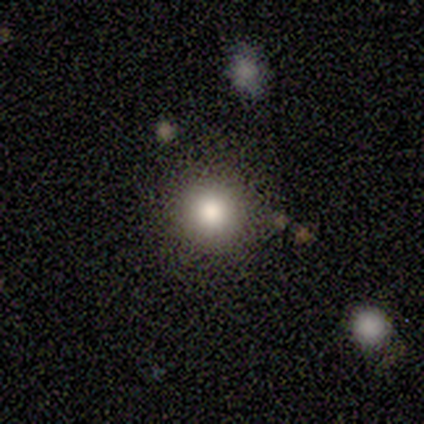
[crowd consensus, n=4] A smooth galaxy with no disk features (100%) that is round (75%).

Vote fractions:
- Smooth or featured? smooth: 100% / featured or disk: 0% / star or artifact: 0%
- How rounded? round: 75% / in between: 25% / cigar-shaped: 0%
- Merging? none: 100% / minor disturbance: 0% / major disturbance: 0% / merger: 0%